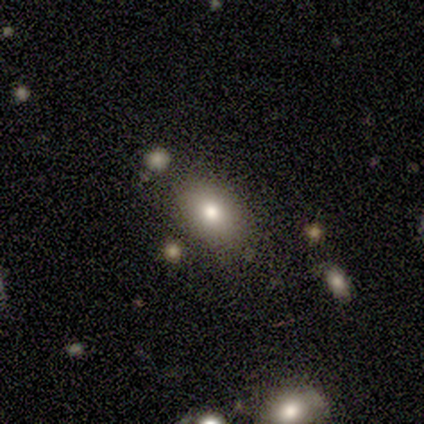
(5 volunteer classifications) smooth-or-featured: smooth: 100% | featured or disk: 0% | star or artifact: 0%
  how-rounded: in between: 80% | round: 20% | cigar-shaped: 0%
  merging: none: 80% | minor disturbance: 20% | major disturbance: 0% | merger: 0%